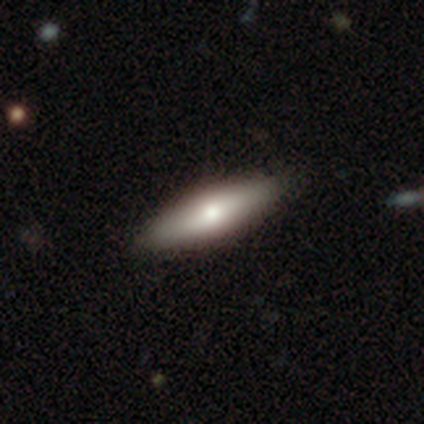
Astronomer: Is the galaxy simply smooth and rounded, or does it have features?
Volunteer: smooth — 60% (runner-up: featured or disk, 40%).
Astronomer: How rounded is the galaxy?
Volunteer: in between — 67%.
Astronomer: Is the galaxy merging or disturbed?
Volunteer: none — 80%.